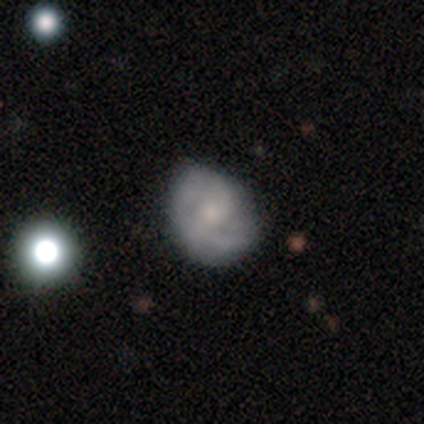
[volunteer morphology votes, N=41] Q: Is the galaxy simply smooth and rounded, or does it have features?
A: featured or disk — 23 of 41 (56%).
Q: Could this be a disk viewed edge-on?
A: no — 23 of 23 (100%).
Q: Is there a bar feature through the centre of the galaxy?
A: no — 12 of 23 (52%).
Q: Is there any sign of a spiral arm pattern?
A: yes — 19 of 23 (83%).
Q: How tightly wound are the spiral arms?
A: tight — 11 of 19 (58%).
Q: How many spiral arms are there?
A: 2 — 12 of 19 (63%).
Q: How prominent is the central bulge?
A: small — 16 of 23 (70%).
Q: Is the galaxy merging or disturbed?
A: none — 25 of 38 (66%).